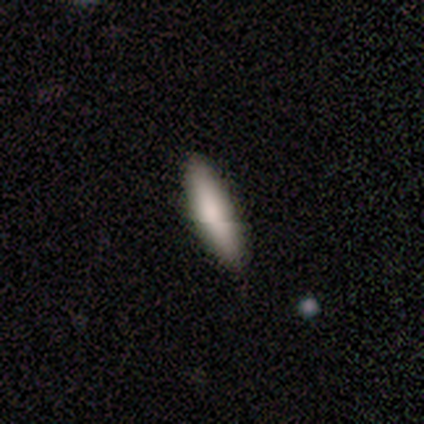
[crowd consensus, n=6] A smooth galaxy with no disk features (100%) that is cigar-shaped (67%). Merging: none (83%).